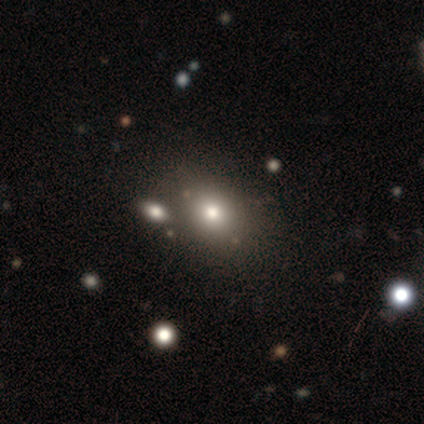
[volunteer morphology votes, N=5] Smooth or featured? smooth (40%, tied with featured or disk)
How rounded? round (100%)
Merging? none (100%)